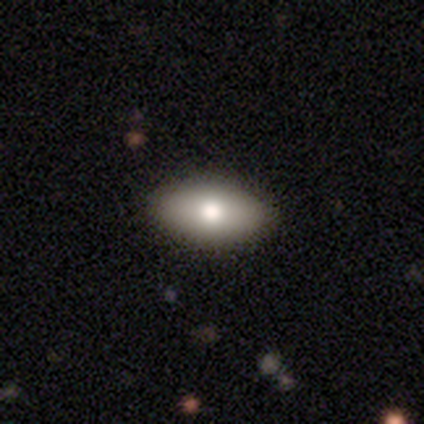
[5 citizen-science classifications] smooth-or-featured: smooth: 80% | featured or disk: 20% | star or artifact: 0%
  how-rounded: in between: 75% | cigar-shaped: 25% | round: 0%
  merging: none: 100% | minor disturbance: 0% | major disturbance: 0% | merger: 0%